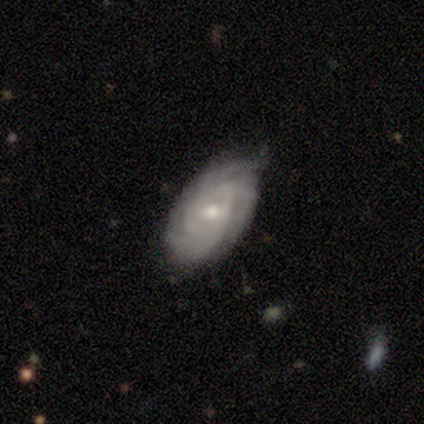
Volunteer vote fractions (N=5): A featured or disk galaxy (100%) with a weak bar (60%), 3 (40%) tight (80%) spiral arms (100%) and a moderate central bulge (80%).

Vote fractions:
- Smooth or featured? featured or disk: 100% / smooth: 0% / star or artifact: 0%
- Edge-on disk? no: 100% / yes: 0%
- Bar? weak: 60% / no: 40% / strong: 0%
- Spiral arms? yes: 100% / no: 0%
- Spiral winding? tight: 80% / loose: 20% / medium: 0%
- Spiral arm count? 3: 40% / 2: 20% / 4: 20% / can't tell: 20% / 1: 0% / more than 4: 0%
- Bulge size? moderate: 80% / small: 20% / dominant: 0% / large: 0% / none: 0%
- Merging? none: 80% / minor disturbance: 20% / major disturbance: 0% / merger: 0%